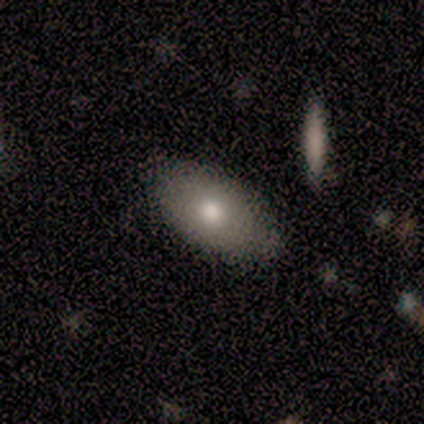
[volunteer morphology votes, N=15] Overall: smooth (93%). How rounded: in between (93%). Merging: none (73%).